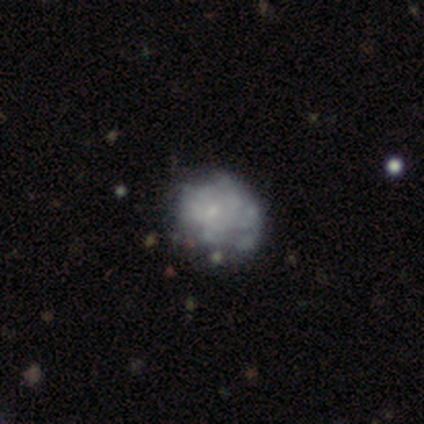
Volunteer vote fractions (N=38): A featured or disk galaxy (68%) with no bar (88%), no spiral arms (81%) and a small central bulge (42%, tied with none).

Vote fractions:
- Smooth or featured? featured or disk: 68% / smooth: 29% / star or artifact: 3%
- Edge-on disk? no: 100% / yes: 0%
- Bar? no: 88% / weak: 12% / strong: 0%
- Spiral arms? no: 81% / yes: 19%
- Bulge size? small: 42% (tied) / none: 42% (tied) / large: 8% / moderate: 8% / dominant: 0%
- Merging? none: 46% / minor disturbance: 19% / major disturbance: 8% / merger: 3%